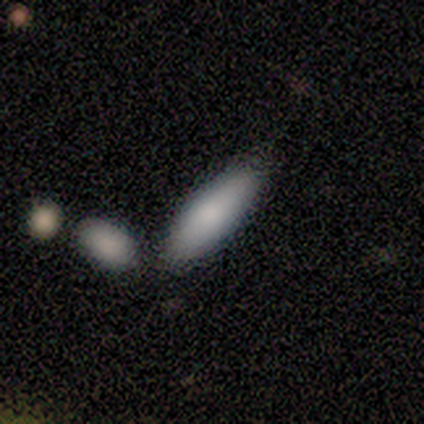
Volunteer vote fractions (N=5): Smooth or featured?
  - smooth: 80% *
  - featured or disk: 20%
  - star or artifact: 0%
How rounded?
  - in between: 75% *
  - cigar-shaped: 25%
  - round: 0%
Merging?
  - merger: 60% *
  - none: 20%
  - minor disturbance: 20%
  - major disturbance: 0%